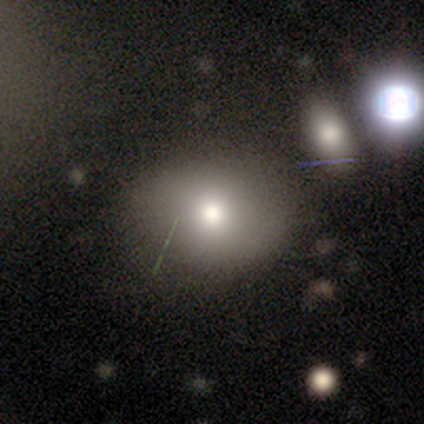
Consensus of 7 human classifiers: smooth_or_featured: smooth (p=0.57) [alt: star or artifact p=0.43]
how_rounded: round (p=0.50) [tied with: in between p=0.50]
merging: none (p=1.00)